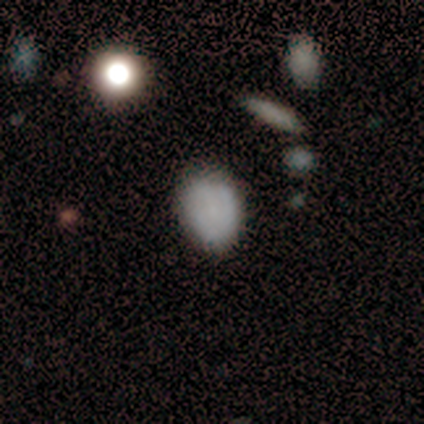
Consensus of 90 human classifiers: Volunteers were most divided on "how rounded": in between: 62%, round: 38%, cigar-shaped: 0%. More confident: merging — none (72%); smooth or featured — smooth (70%).